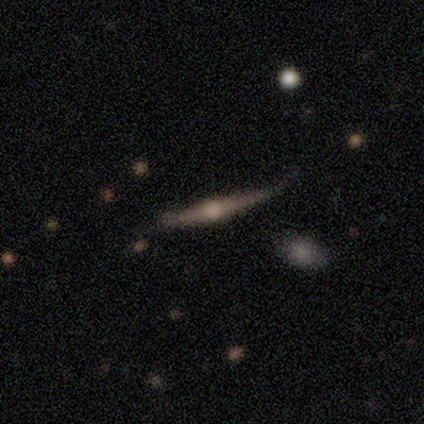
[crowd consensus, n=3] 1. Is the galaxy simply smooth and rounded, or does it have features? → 67% featured or disk, 33% smooth, 0% star or artifact.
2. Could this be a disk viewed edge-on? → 100% yes, 0% no.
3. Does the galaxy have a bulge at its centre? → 100% rounded, 0% boxy, 0% none.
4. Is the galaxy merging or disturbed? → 67% minor disturbance, 33% none, 0% major disturbance, 0% merger.